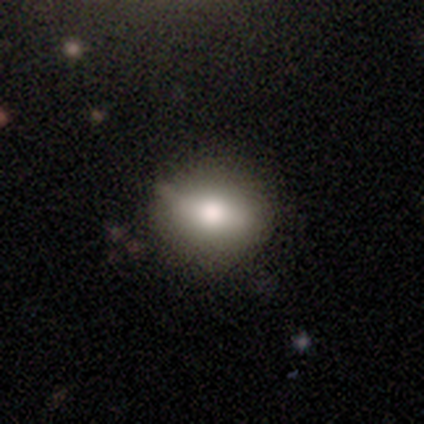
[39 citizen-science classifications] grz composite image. It shows a smooth galaxy with no disk features (72%) that is round (50%). Merging: none (58%).